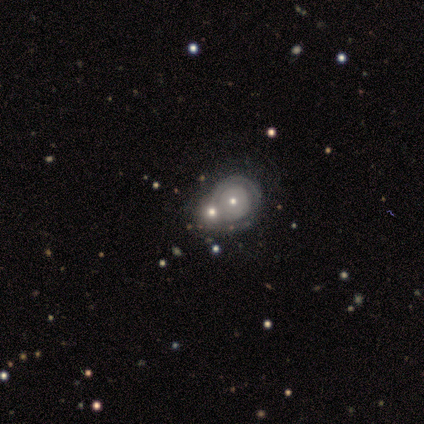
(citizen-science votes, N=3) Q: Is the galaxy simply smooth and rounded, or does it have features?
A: smooth — 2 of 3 (67%).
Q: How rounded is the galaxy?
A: round — 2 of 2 (100%).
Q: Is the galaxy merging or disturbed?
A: merger — 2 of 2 (100%).